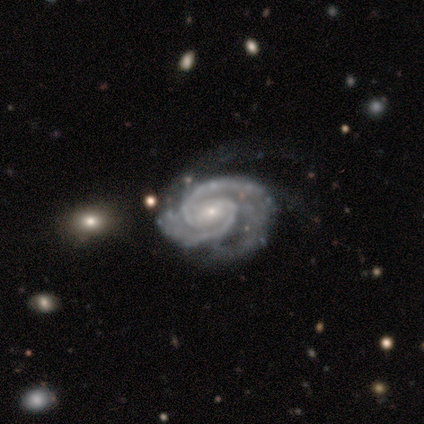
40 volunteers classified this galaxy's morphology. This appears to be a featured or disk galaxy (100%) with no bar (48%), 2 (72%) tight (68%) spiral arms (100%) and a small central bulge (75%). Merging: none (57%).